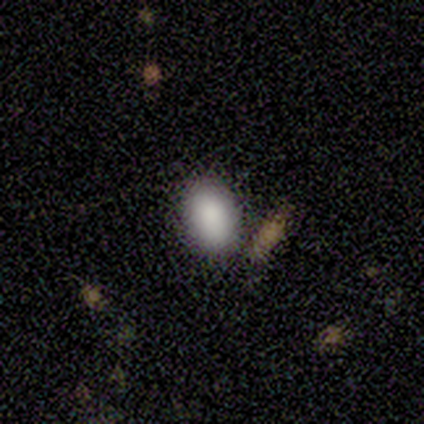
Q: Smooth or featured?
A: smooth (60%); runner-up: featured or disk (20%)
Q: How rounded?
A: in between (67%); runner-up: round (33%)
Q: Merging?
A: none (75%); runner-up: minor disturbance (25%)